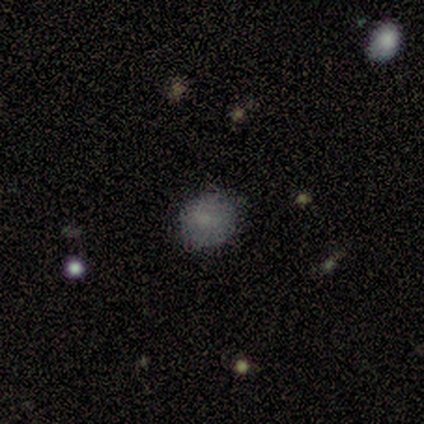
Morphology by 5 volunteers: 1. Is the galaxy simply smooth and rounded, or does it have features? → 60% smooth, 40% featured or disk, 0% star or artifact.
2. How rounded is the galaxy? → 100% round, 0% in between, 0% cigar-shaped.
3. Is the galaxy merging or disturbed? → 60% none, 40% minor disturbance, 0% major disturbance, 0% merger.